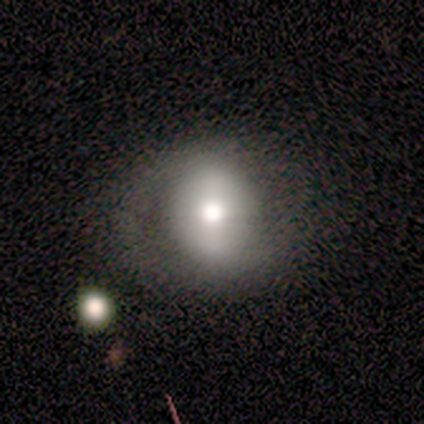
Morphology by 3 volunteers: smooth-or-featured: smooth: 33% (tied) | featured or disk: 33% (tied) | star or artifact: 33% (tied)
  how-rounded: round: 100% | in between: 0% | cigar-shaped: 0%
  merging: minor disturbance: 100% | none: 0% | major disturbance: 0% | merger: 0%